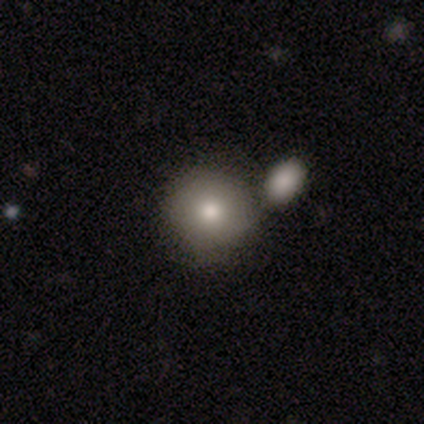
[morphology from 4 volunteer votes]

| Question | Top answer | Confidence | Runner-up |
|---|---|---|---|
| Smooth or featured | smooth | 50% | featured or disk (25%) |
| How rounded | round | 100% | — |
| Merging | none | 67% | merger (33%) |